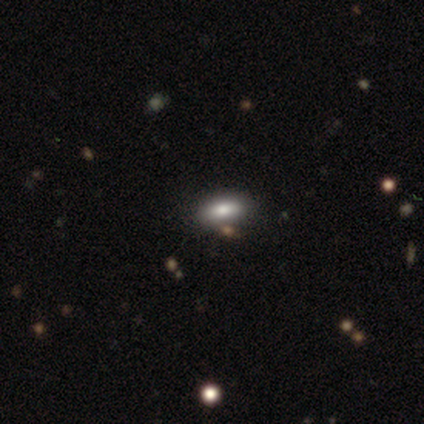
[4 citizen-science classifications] Smooth or featured? smooth (50%, tied with star or artifact)
How rounded? in between (100%)
Merging? none (50%, tied with merger)